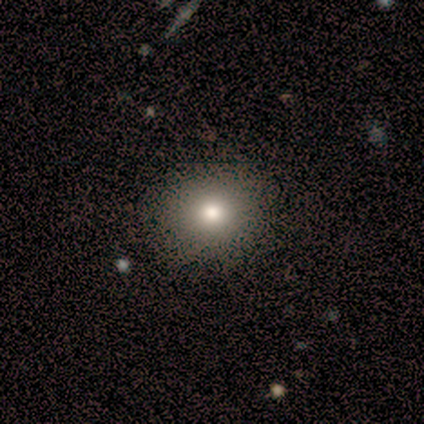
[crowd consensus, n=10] smooth-or-featured: smooth: 80% | star or artifact: 20% | featured or disk: 0%
  how-rounded: round: 62% | in between: 25% | cigar-shaped: 12%
  merging: none: 88% | minor disturbance: 12% | major disturbance: 0% | merger: 0%